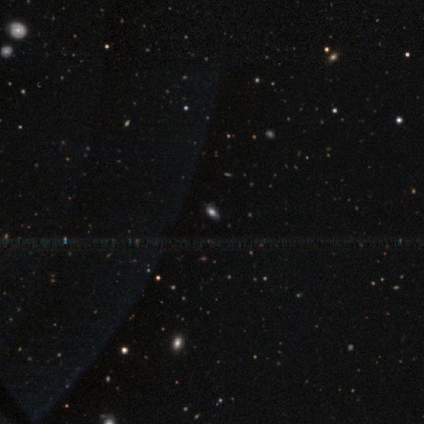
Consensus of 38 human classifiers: Smooth or featured? 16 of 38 (42%) said smooth. How rounded? 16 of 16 (100%) said in between. Merging? 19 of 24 (79%) said none.